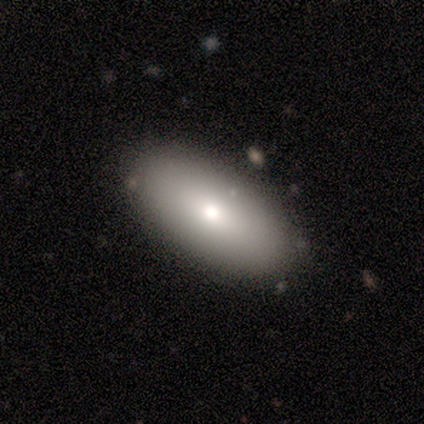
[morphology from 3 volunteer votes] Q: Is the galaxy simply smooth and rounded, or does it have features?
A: smooth — 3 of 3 (100%).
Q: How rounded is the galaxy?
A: in between — 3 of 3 (100%).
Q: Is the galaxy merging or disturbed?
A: none — 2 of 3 (67%).